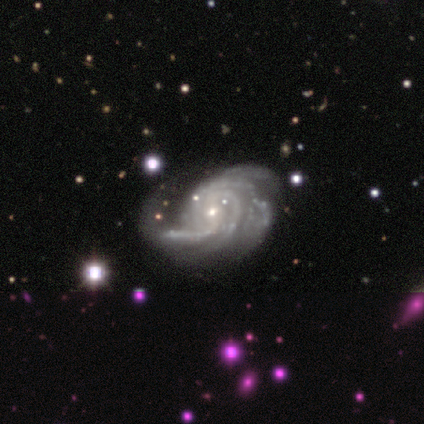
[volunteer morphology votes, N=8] Smooth or featured? 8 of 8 (100%) said featured or disk. Edge-on disk? 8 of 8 (100%) said no. Bar? 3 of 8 (38%, tied with no) said weak. Spiral arms? 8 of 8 (100%) said yes. Spiral winding? 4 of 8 (50%) said tight. Spiral arm count? 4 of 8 (50%) said 3. Bulge size? 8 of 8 (100%) said small. Merging? 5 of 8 (62%) said none.